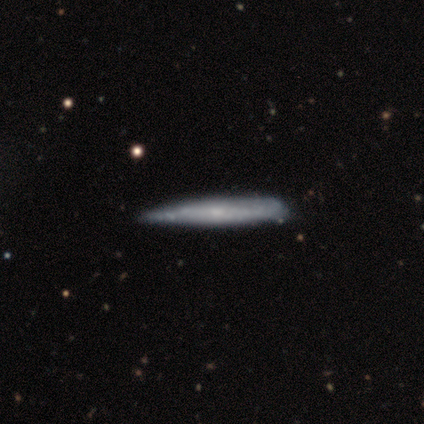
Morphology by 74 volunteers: Smooth or featured? 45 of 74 (61%) said featured or disk. Edge-on disk? 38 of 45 (84%) said yes. Edge-on bulge? 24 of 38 (63%) said none. Merging? 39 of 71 (55%) said none.